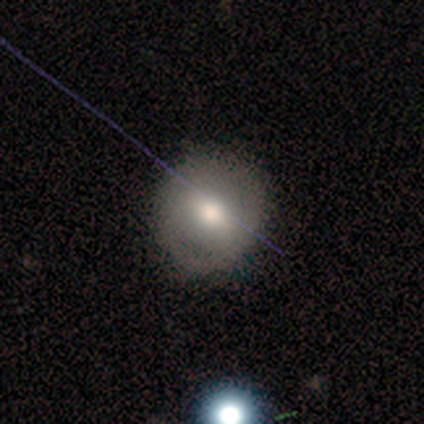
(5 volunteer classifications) smooth-or-featured: smooth: 60% | featured or disk: 20% | star or artifact: 20%
  how-rounded: round: 100% | in between: 0% | cigar-shaped: 0%
  merging: none: 75% | minor disturbance: 25% | major disturbance: 0% | merger: 0%